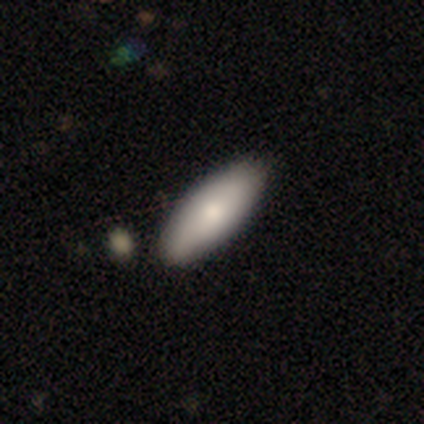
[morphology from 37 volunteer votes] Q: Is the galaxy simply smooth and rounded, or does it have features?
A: smooth — 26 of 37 (70%).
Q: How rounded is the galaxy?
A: in between — 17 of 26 (65%).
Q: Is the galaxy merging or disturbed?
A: none — 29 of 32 (91%).